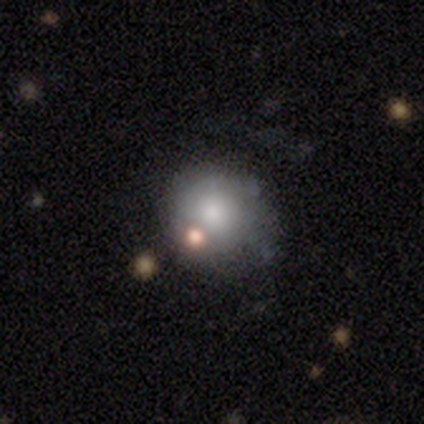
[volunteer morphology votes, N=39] Smooth or featured? smooth (77%)
How rounded? round (90%)
Merging? none (66%)